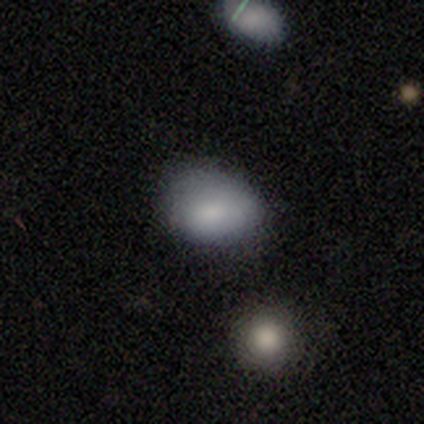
Volunteers were most divided on "merging": none: 48%, minor disturbance: 36%, major disturbance: 9%, merger: 7%. More confident: smooth or featured — smooth (79%); how rounded — in between (60%).